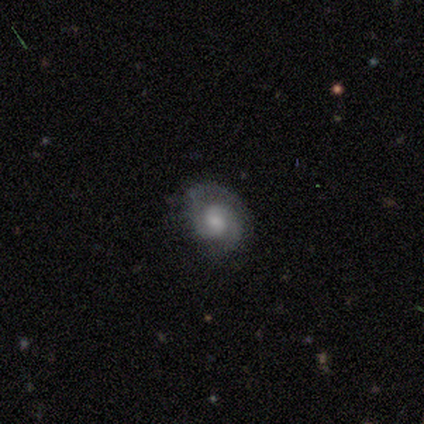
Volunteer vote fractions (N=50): This is clearly a featured or disk galaxy (84%). It is clearly not viewed edge-on (100%). Bar: possibly no (50%). Spiral arm pattern: clearly yes (93%). Spiral arm count: clearly 2 (85%). Spiral winding: possibly tight (59%). Central bulge: possibly small (50%). Merging: likely none (64%).